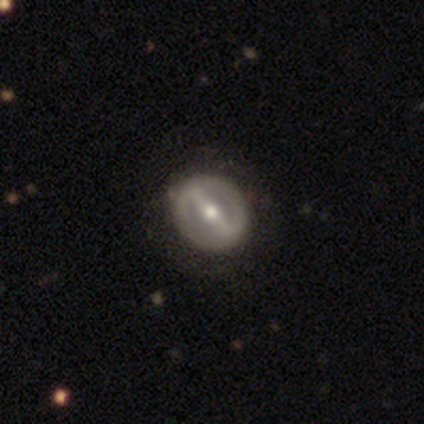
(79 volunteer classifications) Smooth or featured: featured or disk — 78% (smooth — 16%)
Edge-on disk: no — 95% (yes — 5%)
Bar: strong — 85% (weak — 8%)
Spiral arms: no — 61% (yes — 39%)
Bulge size: moderate — 68% (small — 25%)
Merging: none — 44% (minor disturbance — 5%)